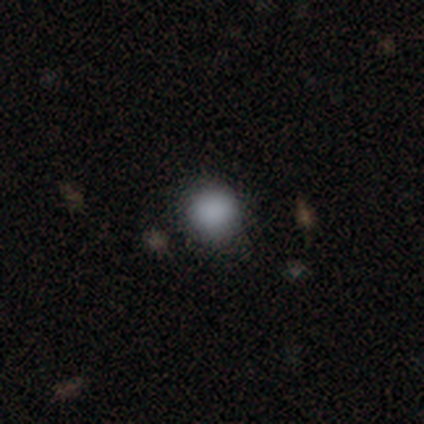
Morphology: type=smooth (80%); roundness=round (100%); merging=none (100%).